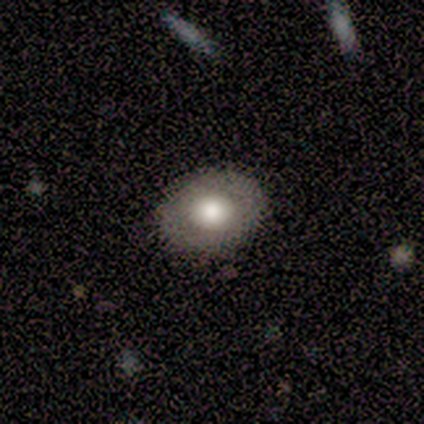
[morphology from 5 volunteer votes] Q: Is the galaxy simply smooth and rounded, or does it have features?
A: smooth — 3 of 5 (60%).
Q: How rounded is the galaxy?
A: in between — 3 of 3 (100%).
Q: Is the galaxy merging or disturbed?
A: none — 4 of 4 (100%).